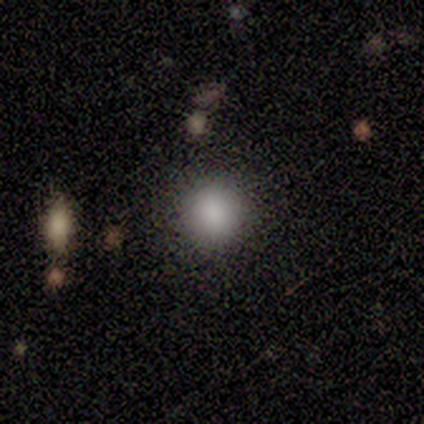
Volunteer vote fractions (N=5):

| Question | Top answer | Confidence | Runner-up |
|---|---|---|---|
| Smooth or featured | smooth | 100% | — |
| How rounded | round | 100% | — |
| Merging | none | 80% | minor disturbance (20%) |